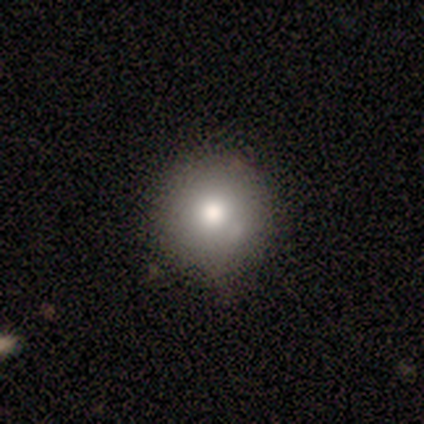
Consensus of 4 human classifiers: Morphology: type=smooth (75%); roundness=round (100%); merging=none (50%).